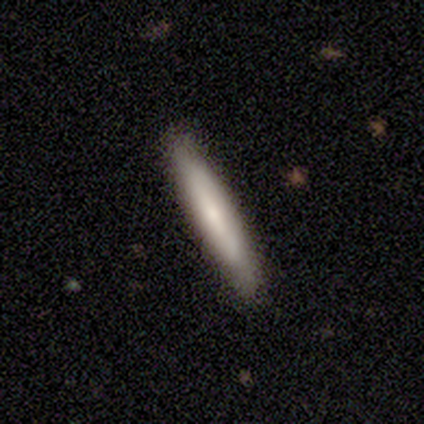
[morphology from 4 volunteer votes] This appears to be a smooth galaxy with no disk features (75%) that is cigar-shaped (100%). Merging: none (100%).